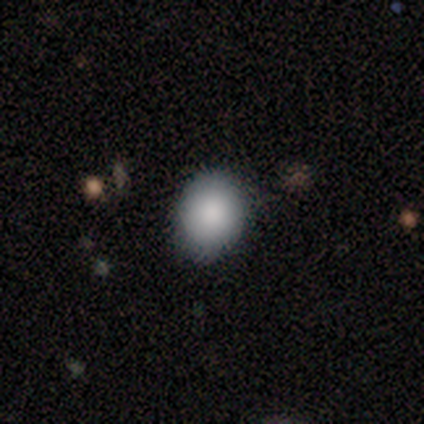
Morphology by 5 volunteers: This is clearly a smooth galaxy (100%). How rounded: likely round (60%). Merging: likely none (60%).